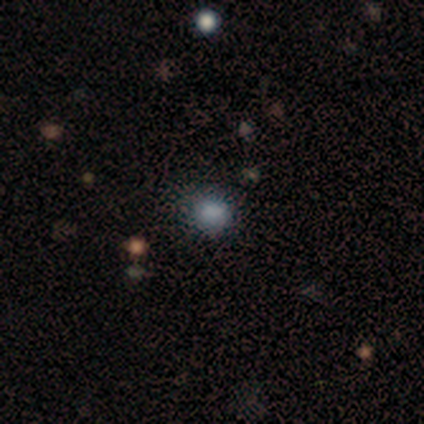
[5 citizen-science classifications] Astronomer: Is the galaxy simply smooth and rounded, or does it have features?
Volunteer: smooth — 80%.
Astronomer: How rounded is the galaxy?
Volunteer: round — 75%.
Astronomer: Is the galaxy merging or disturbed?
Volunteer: none — 50%, tied with minor disturbance at 50%.